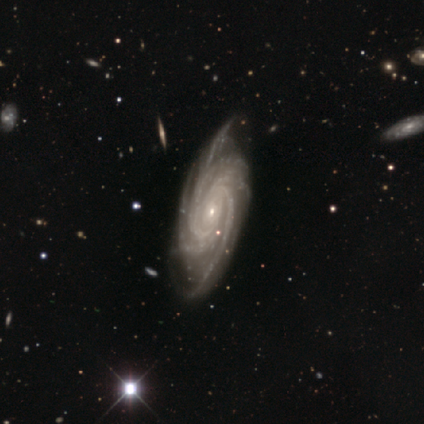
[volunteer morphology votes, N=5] featured or disk 80%, star or artifact 20%, smooth 0%. Down the decision tree: edge-on disk — no (100%); bar — no (75%); spiral arms — yes (100%); spiral arm count — more than 4 (50%, tied with can't tell); spiral winding — tight (75%); bulge size — small (75%); merging — none (75%).